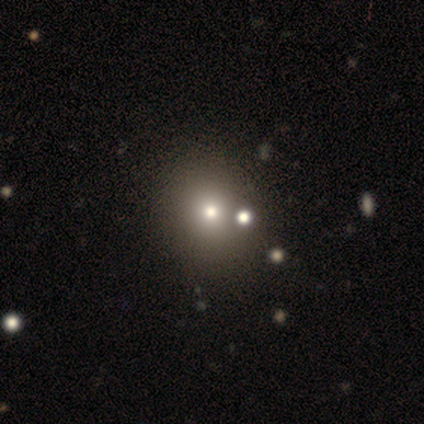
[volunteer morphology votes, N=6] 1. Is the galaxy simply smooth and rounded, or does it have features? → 67% smooth, 17% featured or disk, 17% star or artifact.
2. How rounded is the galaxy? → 75% in between, 25% round, 0% cigar-shaped.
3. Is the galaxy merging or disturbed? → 60% none, 20% major disturbance, 20% merger, 0% minor disturbance.